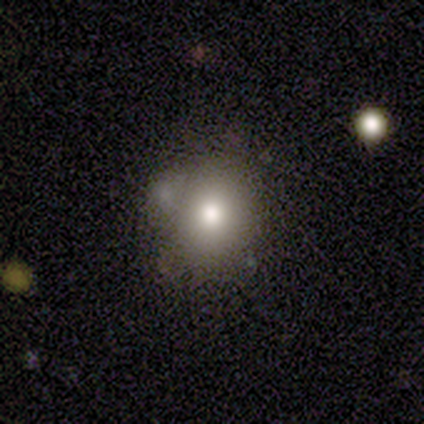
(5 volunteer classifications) Smooth or featured? smooth (80%)
How rounded? round (75%)
Merging? none (60%)